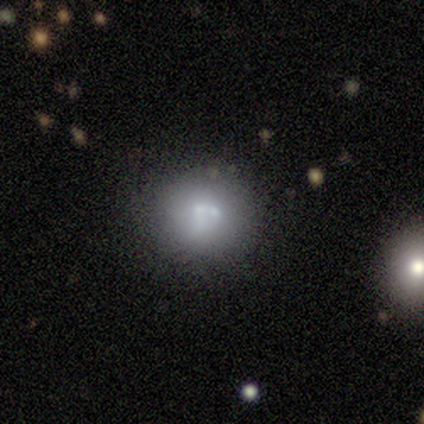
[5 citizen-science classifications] Q: Smooth or featured?
A: smooth (40%); tied with: star or artifact (40%)
Q: How rounded?
A: round (100%)
Q: Merging?
A: none (33%); tied with: minor disturbance (33%); merger (33%)